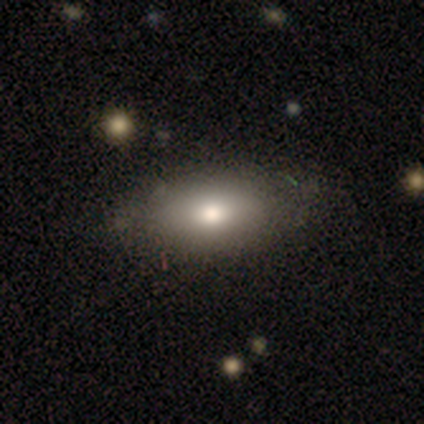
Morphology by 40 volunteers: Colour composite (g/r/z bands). It shows a smooth galaxy with no disk features (75%) that is in between round and cigar-shaped (90%). Merging: none (48%).